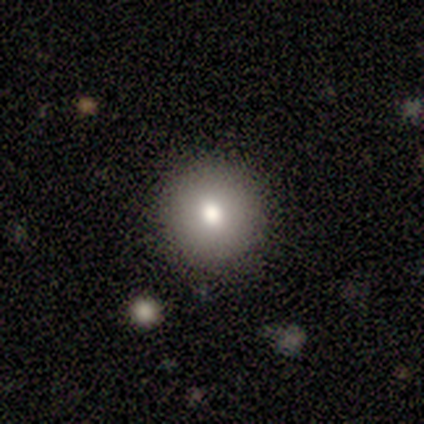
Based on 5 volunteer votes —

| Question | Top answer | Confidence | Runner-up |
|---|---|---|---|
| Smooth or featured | smooth | 80% | featured or disk (20%) |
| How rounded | round | 100% | — |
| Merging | none | 100% | — |